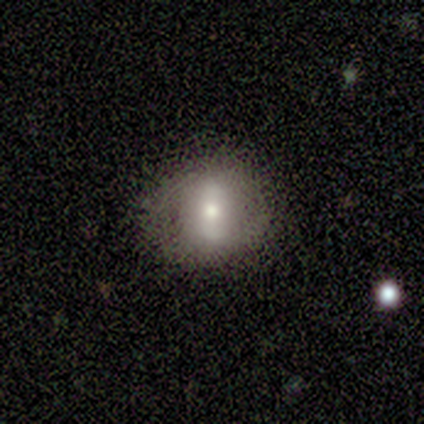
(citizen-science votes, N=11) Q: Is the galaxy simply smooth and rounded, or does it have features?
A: smooth — 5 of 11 (45%, tied with featured or disk).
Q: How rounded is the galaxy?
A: in between — 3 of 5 (60%).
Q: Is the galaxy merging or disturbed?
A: none — 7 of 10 (70%).